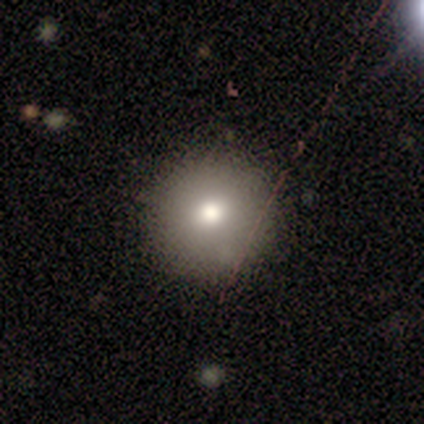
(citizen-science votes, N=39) smooth 85%, featured or disk 8%, star or artifact 8%. Down the decision tree: how rounded — round (100%); merging — none (94%).